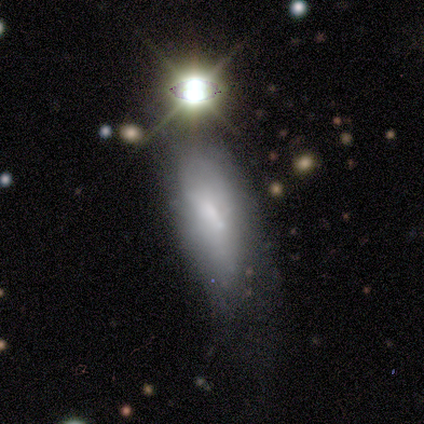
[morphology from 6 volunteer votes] smooth-or-featured: smooth: 67% | featured or disk: 33% | star or artifact: 0%
  how-rounded: in between: 50% (tied) | cigar-shaped: 50% (tied) | round: 0%
  merging: minor disturbance: 50% | major disturbance: 33% | none: 17% | merger: 0%